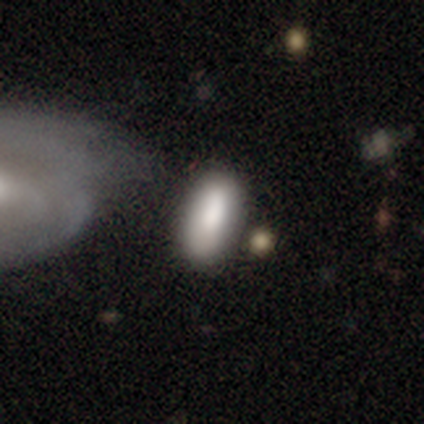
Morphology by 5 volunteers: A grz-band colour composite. It shows a smooth galaxy with no disk features (80%) that is in between round and cigar-shaped (100%). Merging: none (40%, tied with major disturbance).